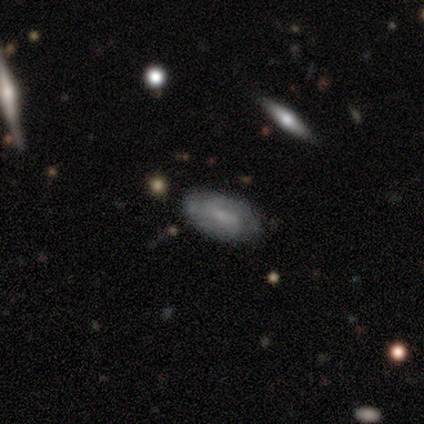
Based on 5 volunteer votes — A smooth galaxy with no disk features (80%) that is in between round and cigar-shaped (75%). Merging: none (80%).